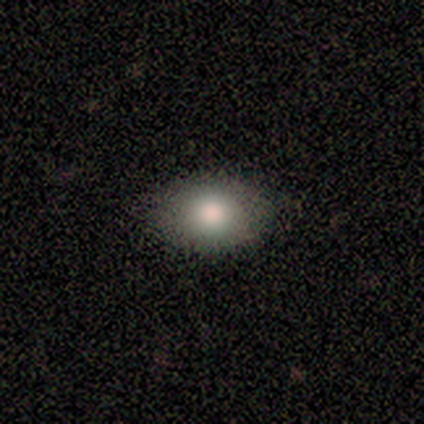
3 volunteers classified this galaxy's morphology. A smooth galaxy with no disk features (100%) that is round (67%). Merging: none (100%).